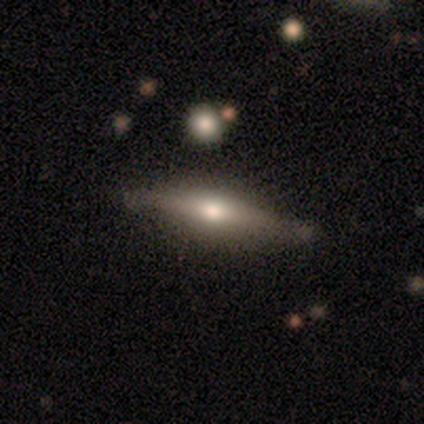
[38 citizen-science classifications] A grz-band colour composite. It shows a featured or disk galaxy (47%) viewed edge-on (100%) with a rounded central bulge (100%). Merging: none (72%).